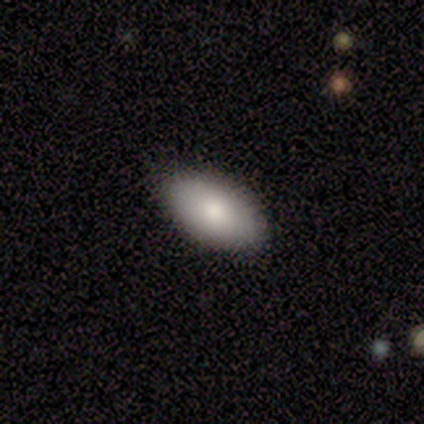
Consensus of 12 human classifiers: This is clearly a smooth galaxy (92%). How rounded: clearly in between (100%). Merging: clearly none (82%).